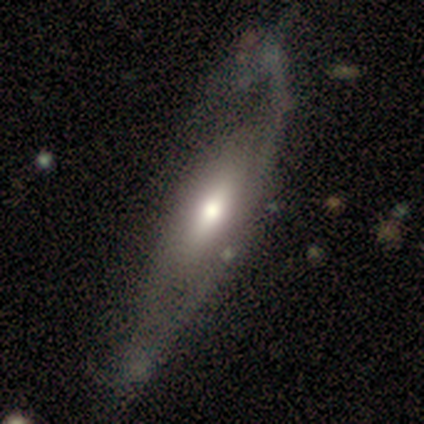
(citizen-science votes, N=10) A featured or disk galaxy (80%) with no bar (60%), tight (33%, tied with medium and loose) spiral arms (60%) and a moderate central bulge (100%).

Vote fractions:
- Smooth or featured? featured or disk: 80% / smooth: 10% / star or artifact: 10%
- Edge-on disk? no: 62% / yes: 38%
- Bar? no: 60% / strong: 20% / weak: 20%
- Spiral arms? yes: 60% / no: 40%
- Spiral winding? tight: 33% (tied) / medium: 33% (tied) / loose: 33% (tied)
- Spiral arm count? can't tell: 100% / 1: 0% / 2: 0% / 3: 0% / 4: 0% / more than 4: 0%
- Bulge size? moderate: 100% / dominant: 0% / large: 0% / small: 0% / none: 0%
- Merging? major disturbance: 56% / none: 33% / minor disturbance: 11% / merger: 0%